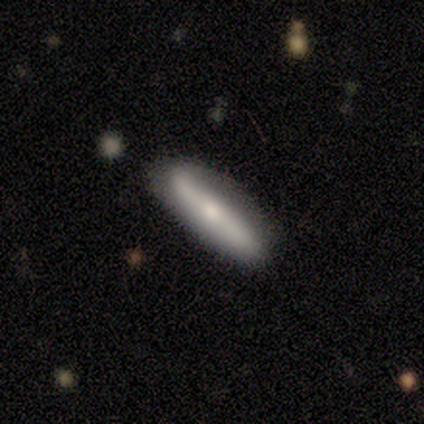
smooth_or_featured: featured or disk (p=0.60) [alt: smooth p=0.20]
disk_edge_on: yes (p=1.00)
edge_on_bulge: rounded (p=1.00)
merging: none (p=0.75) [alt: major disturbance p=0.25]